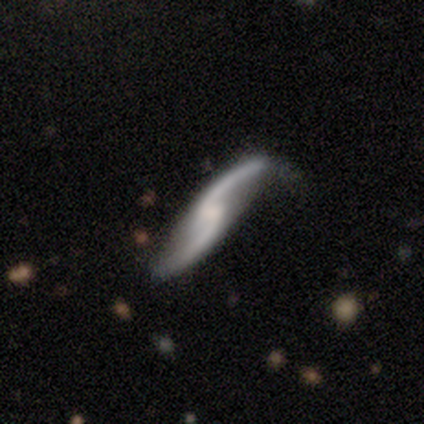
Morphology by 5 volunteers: This appears to be a featured or disk galaxy (100%) with a weak bar (60%), 2 (80%) loose (80%) spiral arms (100%) and a small central bulge (60%). Merging: none (80%).